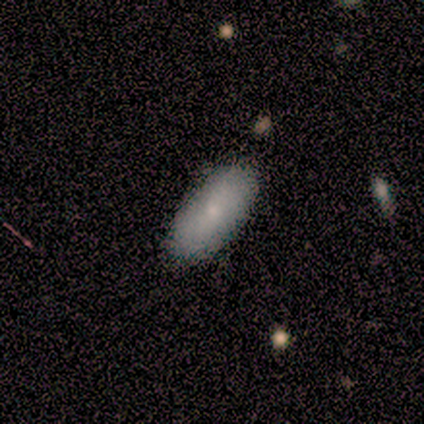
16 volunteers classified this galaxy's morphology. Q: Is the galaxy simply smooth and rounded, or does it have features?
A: smooth — 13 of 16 (81%).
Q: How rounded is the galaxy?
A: in between — 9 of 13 (69%).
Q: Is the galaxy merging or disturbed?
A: none — 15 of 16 (94%).